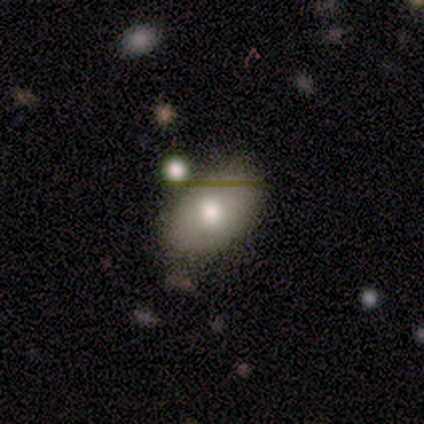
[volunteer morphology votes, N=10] Smooth or featured? 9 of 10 (90%) said smooth. How rounded? 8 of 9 (89%) said in between. Merging? 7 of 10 (70%) said none.